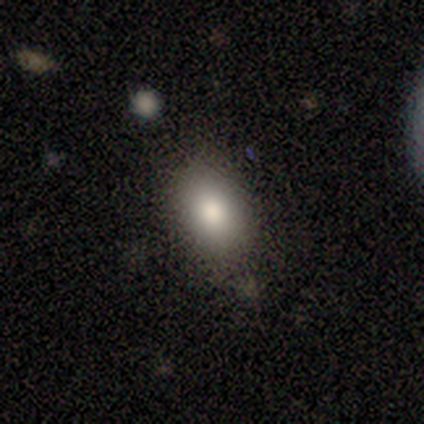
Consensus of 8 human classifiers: Morphology: type=smooth (100%); roundness=in between (100%); merging=none (88%).